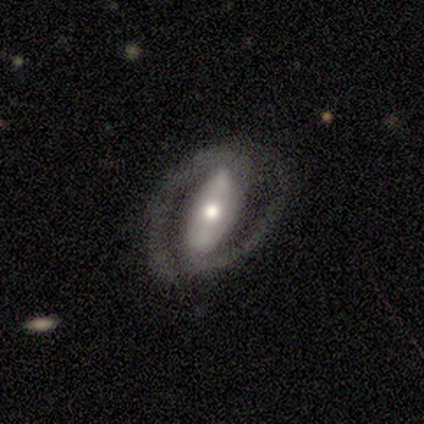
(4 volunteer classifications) smooth-or-featured: featured or disk: 100% | smooth: 0% | star or artifact: 0%
  disk-edge-on: no: 75% | yes: 25%
    bar: strong: 100% | weak: 0% | no: 0%
    has-spiral-arms: yes: 100% | no: 0%
      spiral-winding: tight: 33% (tied) | medium: 33% (tied) | loose: 33% (tied)
      spiral-arm-count: 2: 100% | 1: 0% | 3: 0% | 4: 0% | more than 4: 0% | can't tell: 0%
    bulge-size: moderate: 67% | small: 33% | dominant: 0% | large: 0% | none: 0%
  merging: none: 50% | major disturbance: 25% | merger: 25% | minor disturbance: 0%